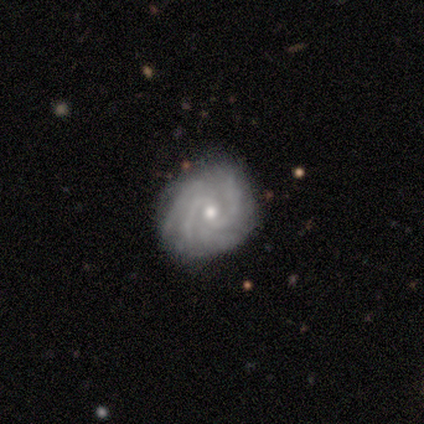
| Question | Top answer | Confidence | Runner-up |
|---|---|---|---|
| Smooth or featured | featured or disk | 80% | star or artifact (20%) |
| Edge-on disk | no | 75% | yes (25%) |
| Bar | strong | 33% | tied: weak (33%), no (33%) |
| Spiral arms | yes | 100% | — |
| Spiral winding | tight | 67% | loose (33%) |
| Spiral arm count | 4 | 67% | can't tell (33%) |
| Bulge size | moderate | 67% | small (33%) |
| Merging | none | 75% | minor disturbance (25%) |